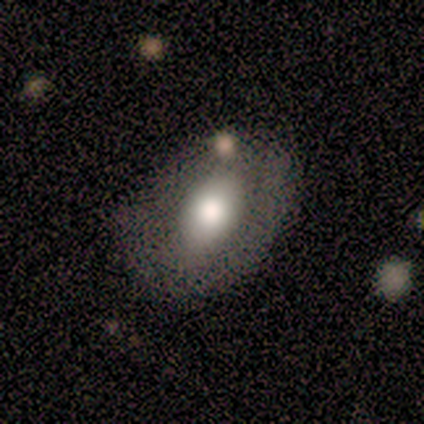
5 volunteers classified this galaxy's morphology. Smooth or featured? smooth (100%)
How rounded? in between (80%)
Merging? none (80%)